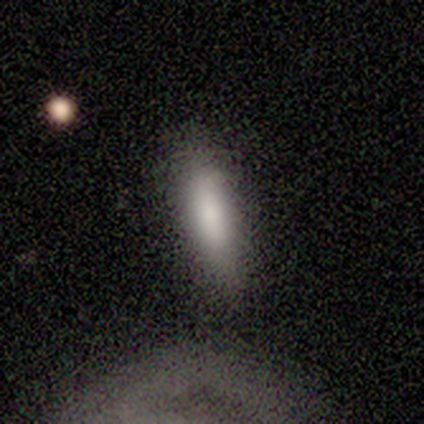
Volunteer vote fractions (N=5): Overall: smooth (100%). How rounded: cigar-shaped (60%; in between 40%). Merging: none (80%).